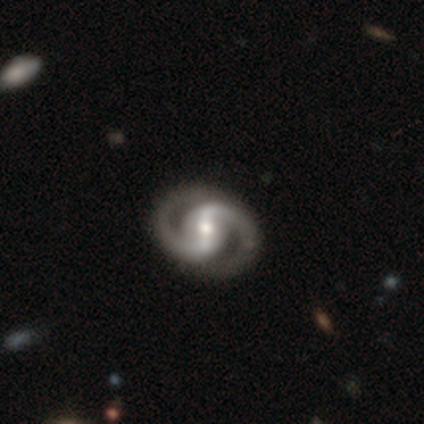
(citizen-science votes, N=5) Morphology: type=featured or disk (80%); edge-on=no (100%); bar=strong (75%); spiral arms=yes (100%); winding=tight (50%); arm count=2 (100%); bulge=moderate (100%); merging=none (80%).